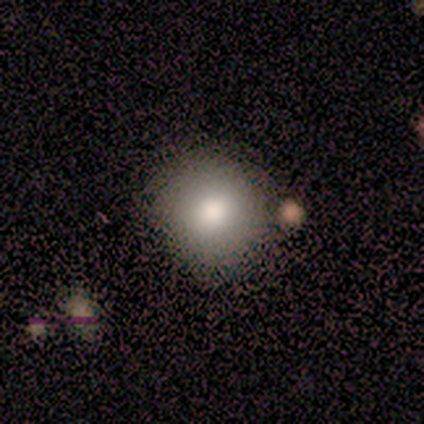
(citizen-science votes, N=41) Q: Smooth or featured?
A: smooth (83%); runner-up: featured or disk (10%)
Q: How rounded?
A: round (88%); runner-up: in between (12%)
Q: Merging?
A: none (82%); runner-up: minor disturbance (13%)